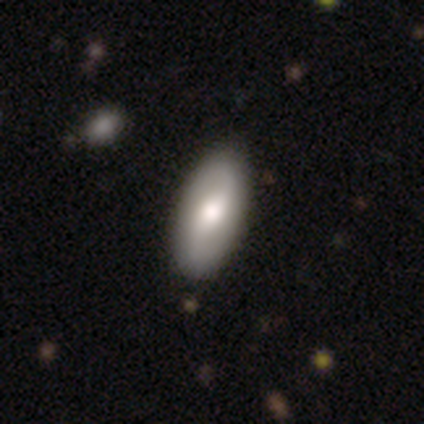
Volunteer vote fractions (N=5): Smooth or featured? 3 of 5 (60%) said smooth. How rounded? 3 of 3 (100%) said in between. Merging? 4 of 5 (80%) said none.